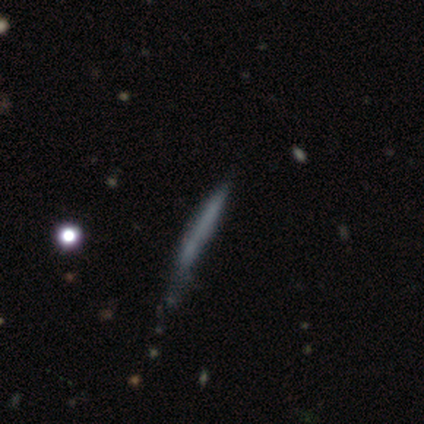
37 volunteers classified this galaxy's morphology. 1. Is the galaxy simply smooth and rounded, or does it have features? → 57% smooth, 38% featured or disk, 5% star or artifact.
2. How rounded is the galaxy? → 100% cigar-shaped, 0% round, 0% in between.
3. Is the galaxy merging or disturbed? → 57% none, 37% minor disturbance, 6% major disturbance, 0% merger.